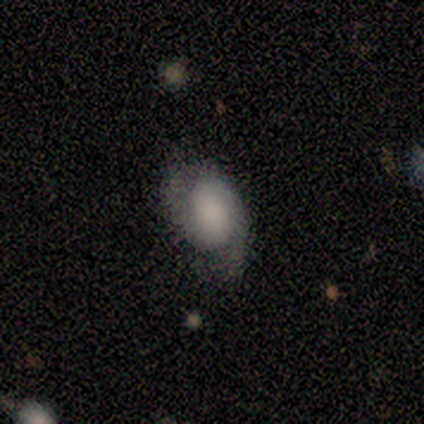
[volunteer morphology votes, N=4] smooth-or-featured: featured or disk: 75% | smooth: 25% | star or artifact: 0%
  disk-edge-on: no: 100% | yes: 0%
    bar: strong: 33% (tied) | weak: 33% (tied) | no: 33% (tied)
    has-spiral-arms: yes: 100% | no: 0%
      spiral-winding: medium: 100% | tight: 0% | loose: 0%
      spiral-arm-count: 2: 100% | 1: 0% | 3: 0% | 4: 0% | more than 4: 0% | can't tell: 0%
    bulge-size: large: 67% | small: 33% | dominant: 0% | moderate: 0% | none: 0%
  merging: none: 50% (tied) | minor disturbance: 50% (tied) | major disturbance: 0% | merger: 0%